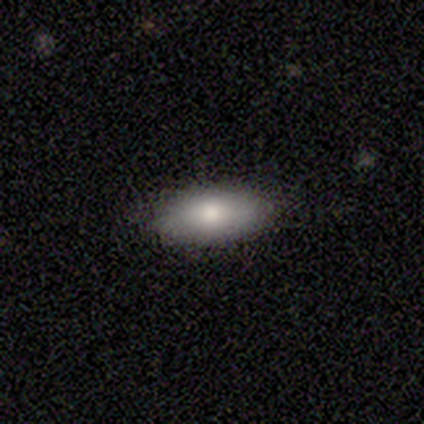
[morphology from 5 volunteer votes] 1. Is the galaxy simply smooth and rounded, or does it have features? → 100% smooth, 0% featured or disk, 0% star or artifact.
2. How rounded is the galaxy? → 100% in between, 0% round, 0% cigar-shaped.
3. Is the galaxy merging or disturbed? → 100% none, 0% minor disturbance, 0% major disturbance, 0% merger.